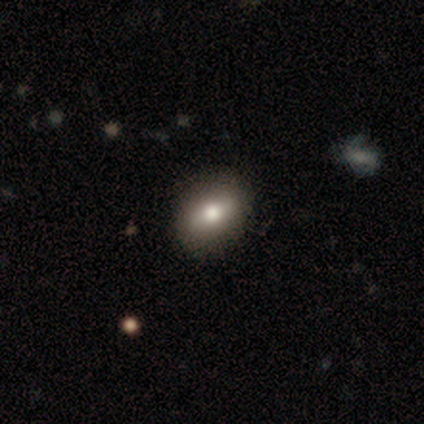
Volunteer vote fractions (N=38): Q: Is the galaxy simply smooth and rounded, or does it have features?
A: smooth — 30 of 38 (79%).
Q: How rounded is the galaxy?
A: in between — 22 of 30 (73%).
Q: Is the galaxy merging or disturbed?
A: none — 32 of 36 (89%).